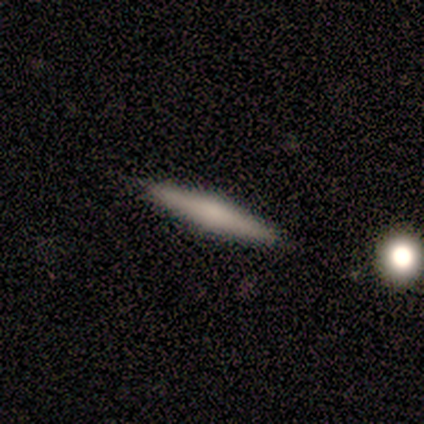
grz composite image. It shows a smooth galaxy with no disk features (50%, tied with featured or disk) that is cigar-shaped (100%). Merging: none (100%).